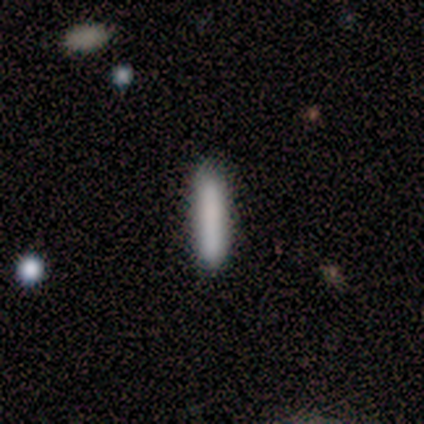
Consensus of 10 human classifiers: smooth 90%, featured or disk 10%, star or artifact 0%. Down the decision tree: how rounded — cigar-shaped (89%); merging — none (90%).